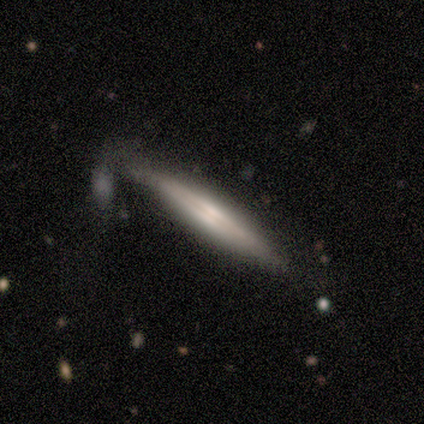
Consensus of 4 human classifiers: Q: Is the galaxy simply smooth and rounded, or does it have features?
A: featured or disk — 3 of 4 (75%).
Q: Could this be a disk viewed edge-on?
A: yes — 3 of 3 (100%).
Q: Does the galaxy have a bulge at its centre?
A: boxy — 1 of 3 (33%, tied with none and rounded).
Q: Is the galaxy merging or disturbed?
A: none — 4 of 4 (100%).